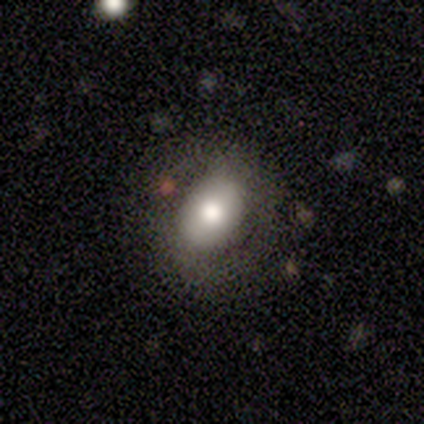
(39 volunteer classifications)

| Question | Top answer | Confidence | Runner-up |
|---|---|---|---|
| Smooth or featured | smooth | 51% | featured or disk (41%) |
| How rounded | in between | 60% | round (40%) |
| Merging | none | 78% | minor disturbance (11%) |